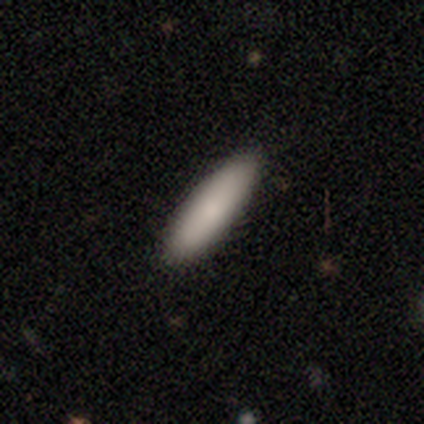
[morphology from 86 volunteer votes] Smooth or featured: smooth — 84% (featured or disk — 10%)
How rounded: cigar-shaped — 72% (in between — 26%)
Merging: none — 89% (minor disturbance — 6%)